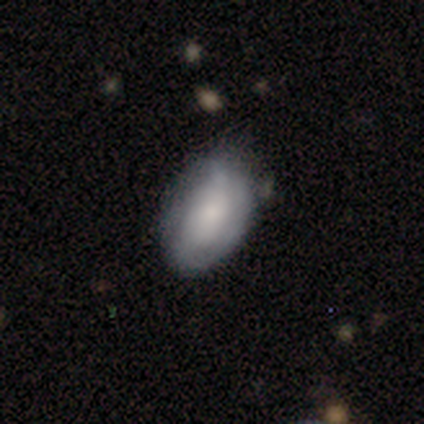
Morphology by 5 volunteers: Smooth or featured?
  - smooth: 60% *
  - featured or disk: 40%
  - star or artifact: 0%
How rounded?
  - in between: 100% *
  - round: 0%
  - cigar-shaped: 0%
Merging?
  - none: 60% *
  - minor disturbance: 20%
  - major disturbance: 20%
  - merger: 0%